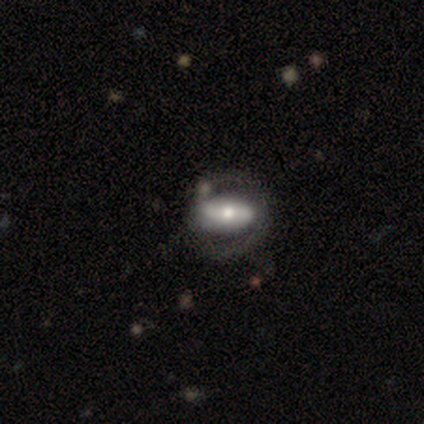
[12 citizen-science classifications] smooth_or_featured: featured or disk (p=0.67) [alt: smooth p=0.25]
disk_edge_on: no (p=0.88) [alt: yes p=0.12]
bar: strong (p=0.57) [alt: no p=0.29]
has_spiral_arms: yes (p=0.86) [alt: no p=0.14]
spiral_winding: medium (p=0.83) [alt: tight p=0.17]
spiral_arm_count: 2 (p=1.00)
bulge_size: moderate (p=0.71) [alt: large p=0.14]
merging: none (p=0.64) [alt: minor disturbance p=0.18]